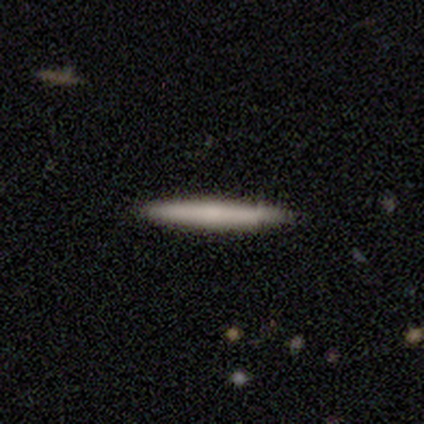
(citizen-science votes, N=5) smooth-or-featured: smooth: 100% | featured or disk: 0% | star or artifact: 0%
  how-rounded: cigar-shaped: 80% | in between: 20% | round: 0%
  merging: none: 80% | minor disturbance: 20% | major disturbance: 0% | merger: 0%